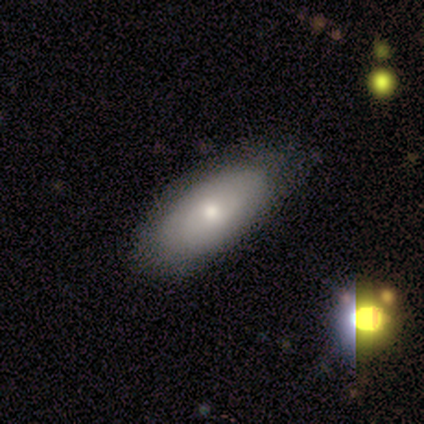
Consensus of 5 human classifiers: Smooth or featured? smooth (60%)
How rounded? in between (100%)
Merging? none (80%)